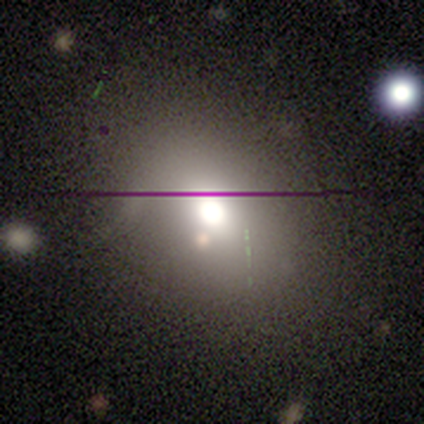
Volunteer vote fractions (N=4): This is clearly a smooth galaxy (100%). How rounded: likely in between (75%). Merging: clearly none (100%).